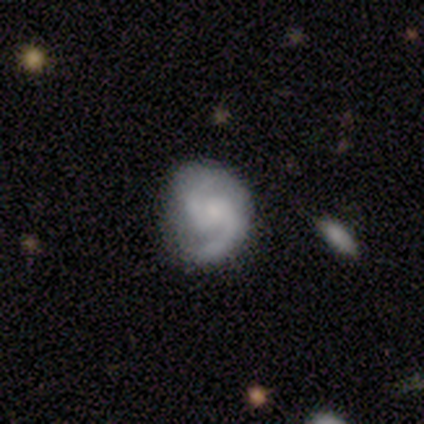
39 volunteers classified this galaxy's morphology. type=featured or disk (77%); edge-on=no (100%); bar=weak (47%); spiral arms=yes (97%); winding=medium (72%); arm count=2 (97%); bulge=small (57%); merging=none (59%).